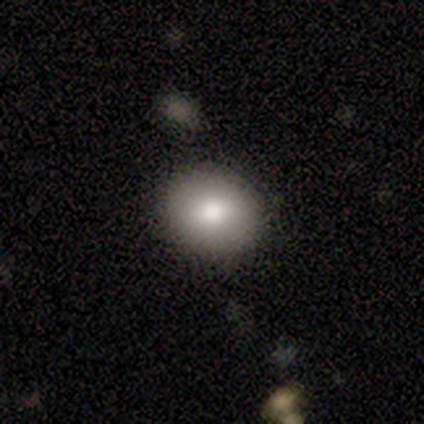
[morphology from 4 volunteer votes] Smooth or featured: smooth — 75% (featured or disk — 25%)
How rounded: round — 100%
Merging: none — 100%